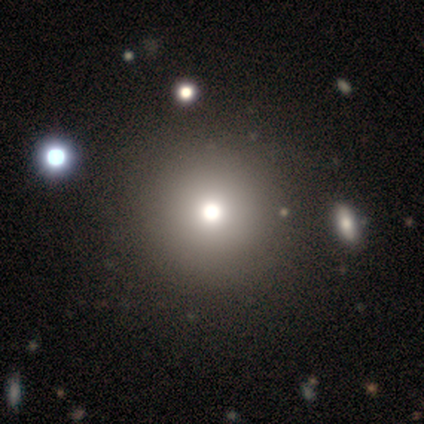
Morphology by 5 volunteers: Volunteers were most divided on "smooth or featured": smooth: 60%, featured or disk: 20%, star or artifact: 20%. More confident: how rounded — round (100%); merging — none (100%).